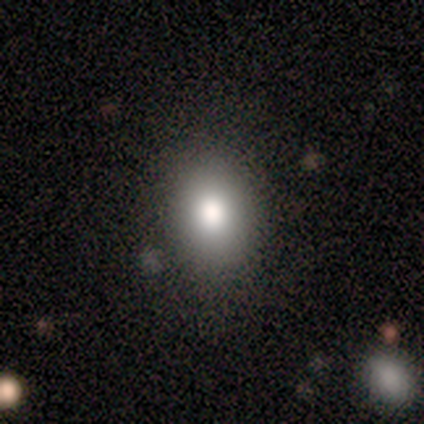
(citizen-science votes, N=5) Smooth or featured?
  - smooth: 80% *
  - star or artifact: 20%
  - featured or disk: 0%
How rounded?
  - in between: 75% *
  - round: 25%
  - cigar-shaped: 0%
Merging?
  - none: 50% *
  - minor disturbance: 25%
  - major disturbance: 25%
  - merger: 0%